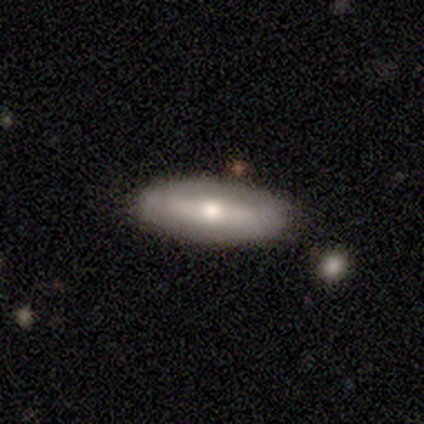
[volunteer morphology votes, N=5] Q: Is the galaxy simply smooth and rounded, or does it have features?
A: smooth — 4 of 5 (80%).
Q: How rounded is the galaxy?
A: in between — 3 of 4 (75%).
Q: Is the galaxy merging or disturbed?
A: none — 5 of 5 (100%).